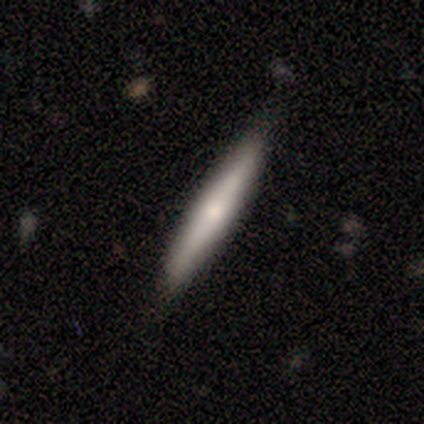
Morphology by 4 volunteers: Smooth or featured? 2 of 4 (50%) said smooth. How rounded? 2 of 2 (100%) said cigar-shaped. Merging? 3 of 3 (100%) said none.